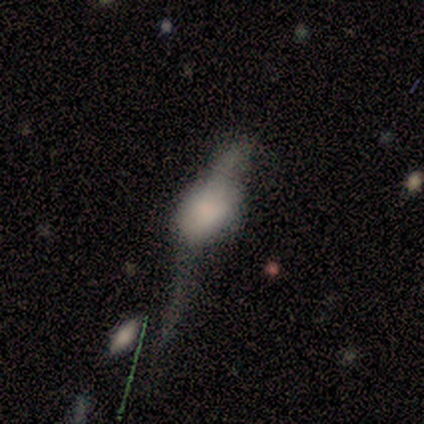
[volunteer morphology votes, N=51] Smooth or featured?
  - smooth: 51% *
  - featured or disk: 45%
  - star or artifact: 4%
How rounded?
  - in between: 69% *
  - round: 27%
  - cigar-shaped: 4%
Merging?
  - major disturbance: 51% *
  - minor disturbance: 24%
  - none: 12%
  - merger: 12%